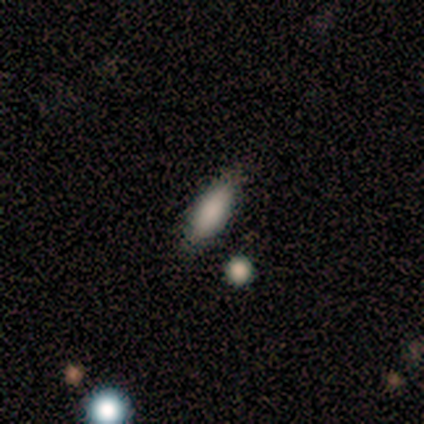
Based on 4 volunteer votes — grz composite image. It shows a smooth galaxy with no disk features (100%) that is in between round and cigar-shaped (75%). Merging: none (50%).